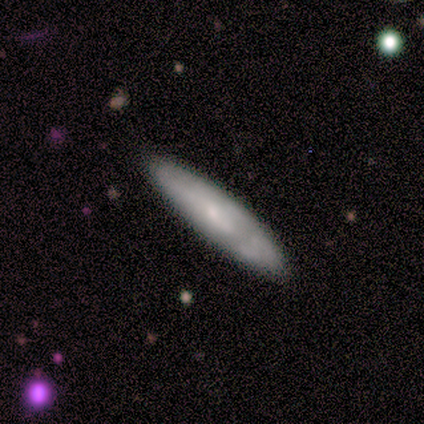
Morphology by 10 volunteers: Volunteers were most divided on "how rounded" (2-way tie): in between: 50%, cigar-shaped: 50%, round: 0%. More confident: smooth or featured — smooth (60%); merging — none (60%).